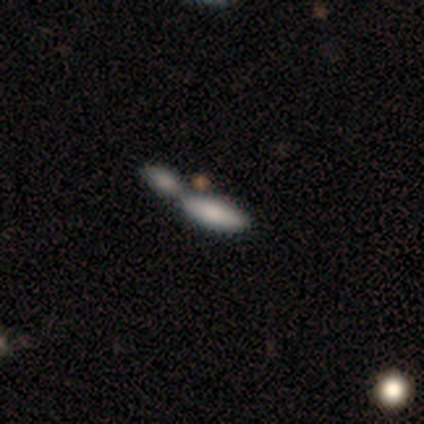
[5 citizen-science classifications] Volunteers were most divided on "how rounded" (2-way tie): in between: 50%, cigar-shaped: 50%, round: 0%. More confident: smooth or featured — smooth (80%); merging — merger (80%).